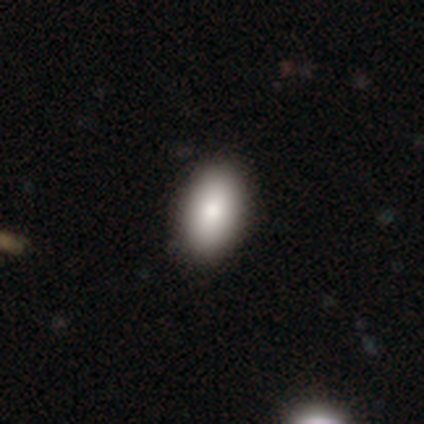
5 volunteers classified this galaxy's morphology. This appears to be a smooth galaxy with no disk features (60%) that is in between round and cigar-shaped (100%). Merging: none (100%).